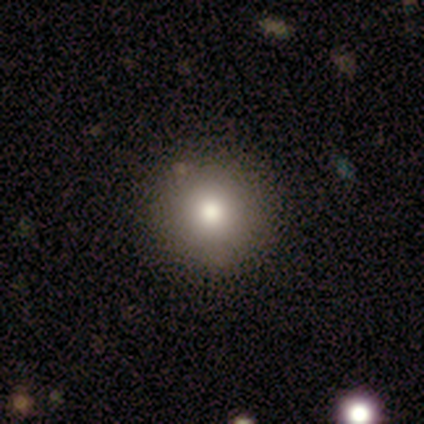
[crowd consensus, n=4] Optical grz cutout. It shows a smooth galaxy with no disk features (75%) that is round (100%). Merging: none (100%).